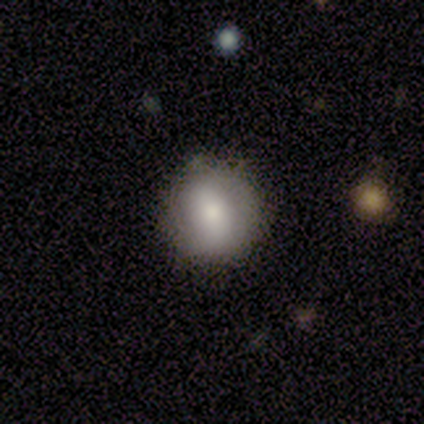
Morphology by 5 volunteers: This appears to be a smooth galaxy with no disk features (80%) that is round (100%). Merging: none (100%).